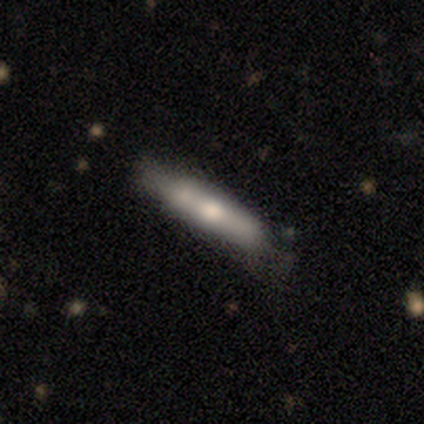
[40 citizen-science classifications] Smooth or featured? smooth (50%)
How rounded? cigar-shaped (95%)
Merging? none (54%)